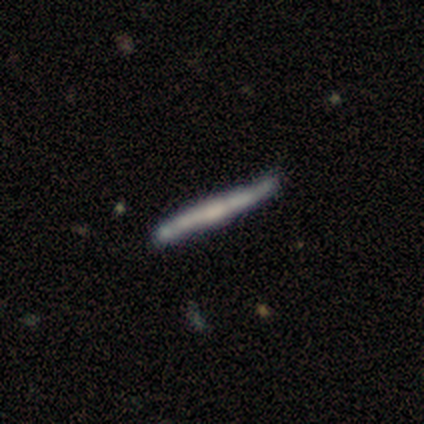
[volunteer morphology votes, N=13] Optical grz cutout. It shows a smooth galaxy with no disk features (62%) that is cigar-shaped (100%). Merging: none (77%).